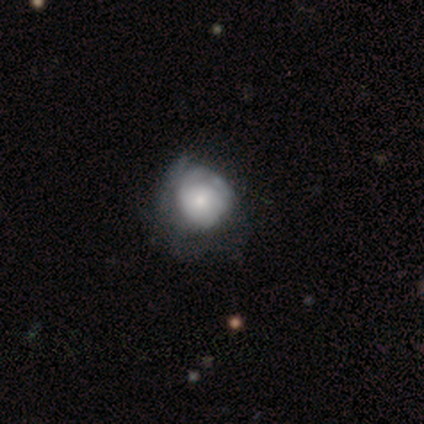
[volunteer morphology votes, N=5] A smooth galaxy with no disk features (60%) that is round (100%).

Vote fractions:
- Smooth or featured? smooth: 60% / featured or disk: 20% / star or artifact: 20%
- How rounded? round: 100% / in between: 0% / cigar-shaped: 0%
- Merging? none: 50% (tied) / minor disturbance: 50% (tied) / major disturbance: 0% / merger: 0%